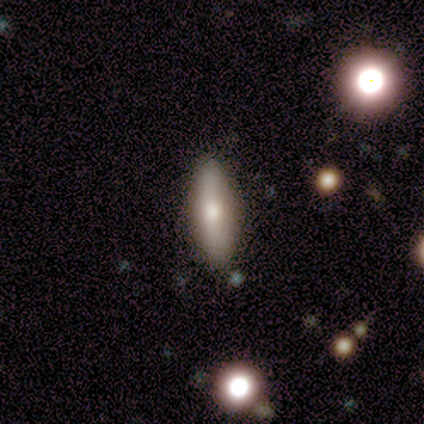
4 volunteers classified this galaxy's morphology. Smooth or featured? 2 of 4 (50%, tied with featured or disk) said smooth. How rounded? 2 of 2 (100%) said in between. Merging? 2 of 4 (50%, tied with minor disturbance) said none.